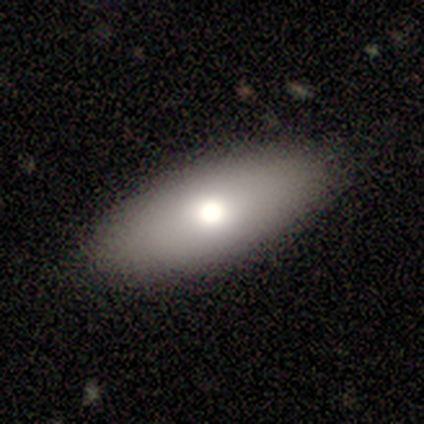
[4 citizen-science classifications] Smooth or featured?
  - smooth: 75% *
  - featured or disk: 25%
  - star or artifact: 0%
How rounded?
  - in between: 100% *
  - round: 0%
  - cigar-shaped: 0%
Merging?
  - none: 75% *
  - merger: 25%
  - minor disturbance: 0%
  - major disturbance: 0%